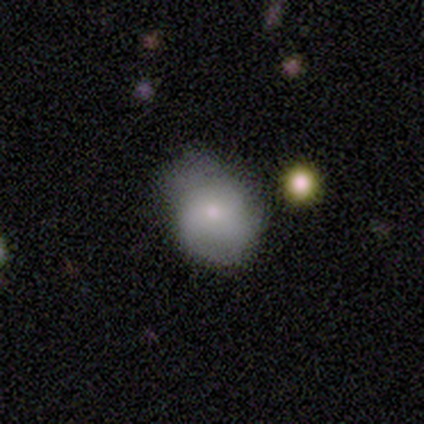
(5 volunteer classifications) This appears to be a smooth galaxy with no disk features (80%) that is in between round and cigar-shaped (100%). Merging: none (60%).